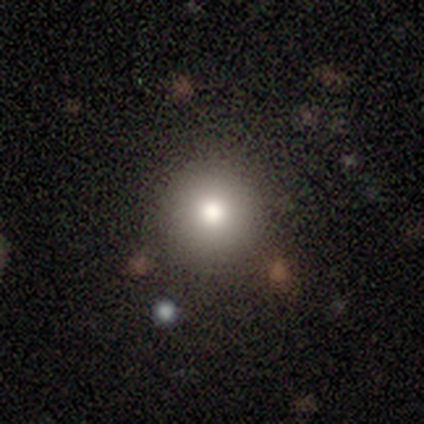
smooth_or_featured: smooth (p=0.78) [alt: star or artifact p=0.14]
how_rounded: round (p=0.93) [alt: in between p=0.07]
merging: none (p=0.94) [alt: minor disturbance p=0.06]